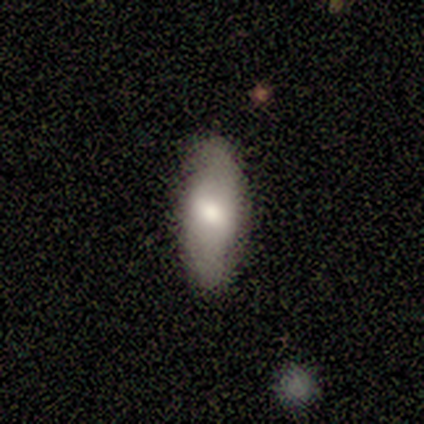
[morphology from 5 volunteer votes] Smooth or featured? 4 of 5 (80%) said smooth. How rounded? 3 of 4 (75%) said in between. Merging? 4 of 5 (80%) said minor disturbance.